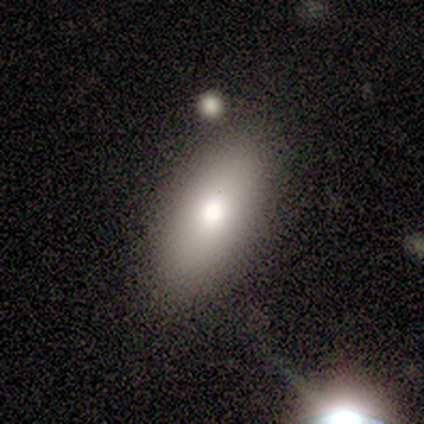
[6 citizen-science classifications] Q: Smooth or featured?
A: smooth (67%); runner-up: featured or disk (17%)
Q: How rounded?
A: in between (50%); tied with: cigar-shaped (50%)
Q: Merging?
A: none (80%); runner-up: minor disturbance (20%)